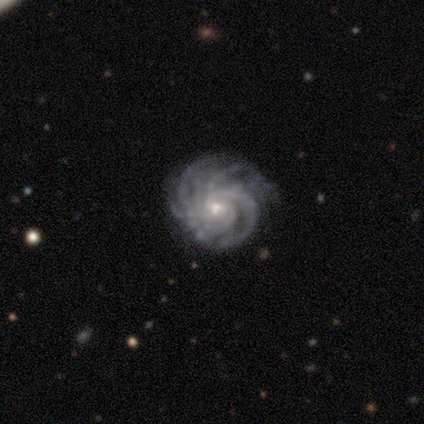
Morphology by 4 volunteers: smooth_or_featured: featured or disk (p=1.00)
disk_edge_on: no (p=1.00)
bar: no (p=0.75) [alt: weak p=0.25]
has_spiral_arms: yes (p=1.00)
spiral_winding: tight (p=1.00)
spiral_arm_count: more than 4 (p=0.75) [alt: can't tell p=0.25]
bulge_size: small (p=0.50) [alt: large p=0.25]
merging: none (p=1.00)